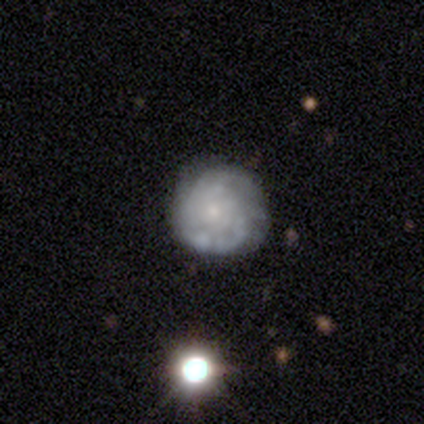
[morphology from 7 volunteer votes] This is clearly a featured or disk galaxy (86%). It is clearly not viewed edge-on (100%). Bar: clearly no (100%). Spiral arm pattern: clearly yes (83%). Spiral arm count: clearly can't tell (100%). Spiral winding: clearly tight (100%). Central bulge: clearly small (100%). Merging: clearly minor disturbance (86%).